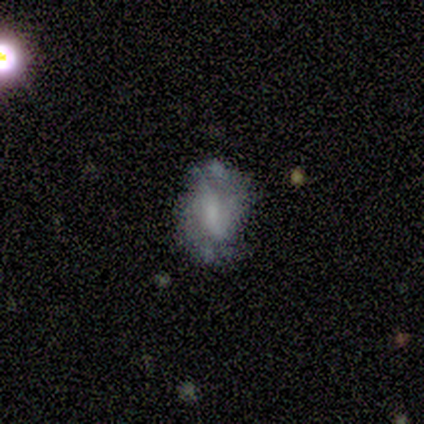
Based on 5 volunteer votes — This appears to be a featured or disk galaxy (60%) with a weak bar (67%), 2 (50%, tied with can't tell) tight (50%, tied with medium) spiral arms (67%) and a small central bulge (67%). Merging: none (50%).